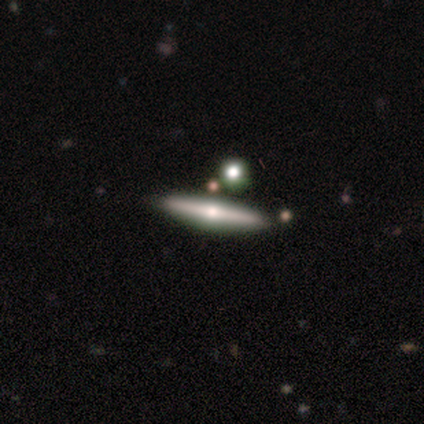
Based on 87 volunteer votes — This appears to be a featured or disk galaxy (56%) viewed edge-on (98%) with a rounded central bulge (96%). Merging: none (89%).